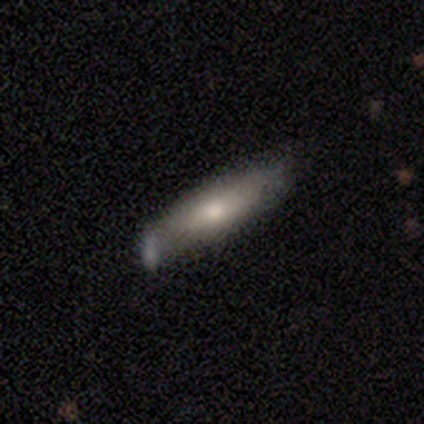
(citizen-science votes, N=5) A featured or disk galaxy (60%) viewed edge-on (67%) with a boxy central bulge (100%).

Vote fractions:
- Smooth or featured? featured or disk: 60% / smooth: 40% / star or artifact: 0%
- Edge-on disk? yes: 67% / no: 33%
- Edge-on bulge? boxy: 100% / none: 0% / rounded: 0%
- Merging? none: 80% / minor disturbance: 20% / major disturbance: 0% / merger: 0%